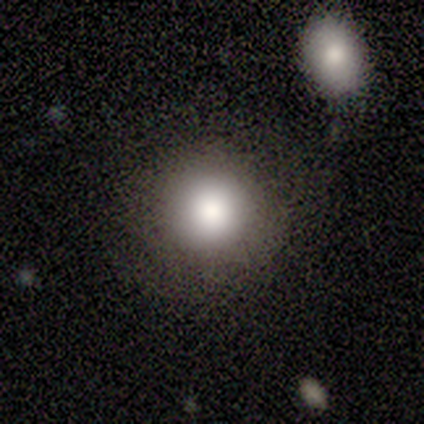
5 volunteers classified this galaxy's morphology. Smooth or featured? 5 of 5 (100%) said smooth. How rounded? 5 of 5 (100%) said round. Merging? 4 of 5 (80%) said none.